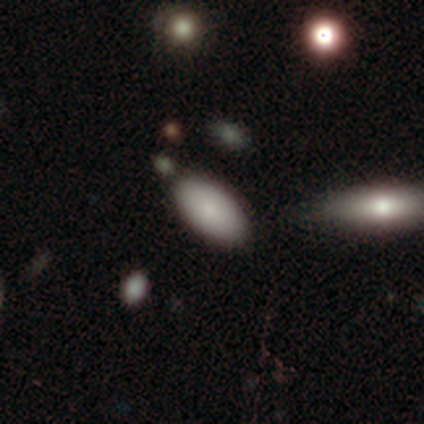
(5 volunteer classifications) Overall: smooth (80%). How rounded: in between (75%). Merging: none (80%).